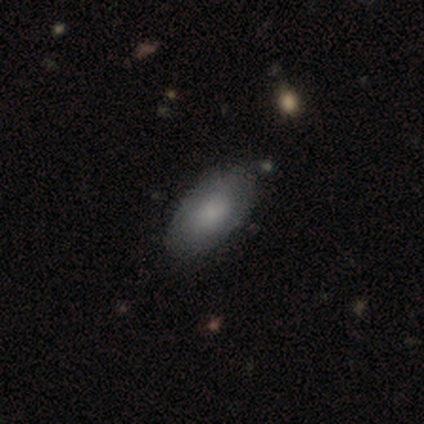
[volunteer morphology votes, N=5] A smooth galaxy with no disk features (80%) that is in between round and cigar-shaped (100%).

Vote fractions:
- Smooth or featured? smooth: 80% / featured or disk: 20% / star or artifact: 0%
- How rounded? in between: 100% / round: 0% / cigar-shaped: 0%
- Merging? none: 80% / minor disturbance: 20% / major disturbance: 0% / merger: 0%